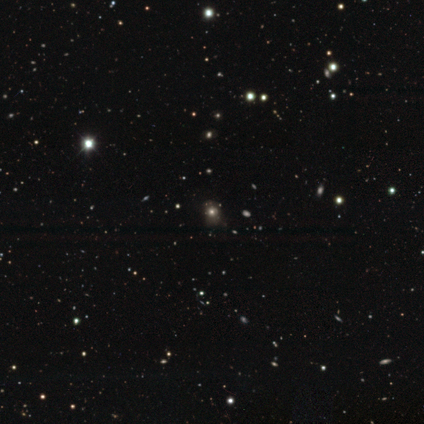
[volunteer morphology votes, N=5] Q: Smooth or featured?
A: smooth (100%)
Q: How rounded?
A: in between (60%); runner-up: round (40%)
Q: Merging?
A: none (80%); runner-up: minor disturbance (20%)